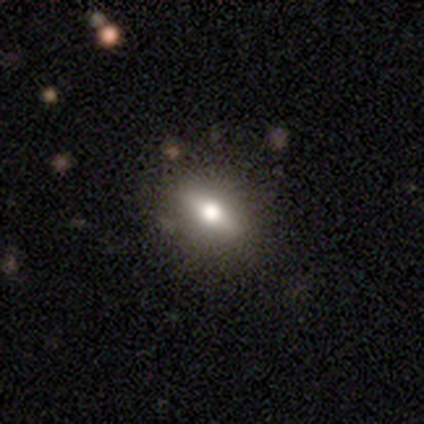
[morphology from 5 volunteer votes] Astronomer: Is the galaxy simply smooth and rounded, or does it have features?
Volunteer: smooth — 60% (runner-up: featured or disk, 40%).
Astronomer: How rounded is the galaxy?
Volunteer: in between — 100%.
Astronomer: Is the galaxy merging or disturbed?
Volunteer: none — 100%.